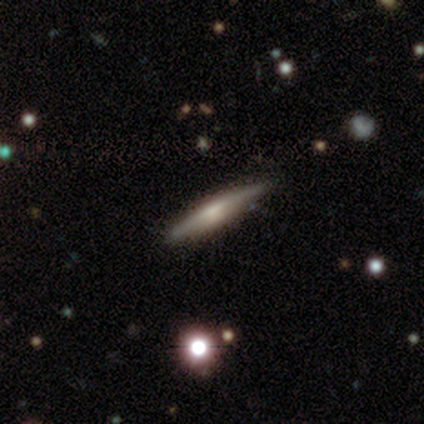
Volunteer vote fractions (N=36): Smooth or featured? 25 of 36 (69%) said featured or disk. Edge-on disk? 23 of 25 (92%) said yes. Edge-on bulge? 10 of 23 (43%) said rounded. Merging? 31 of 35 (89%) said none.